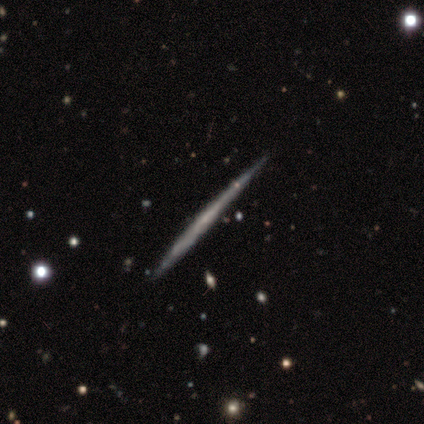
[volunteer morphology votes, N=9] type=smooth (44%, tied with featured or disk); roundness=cigar-shaped (100%); merging=none (75%).